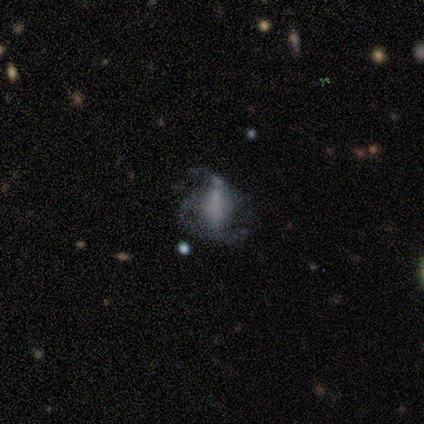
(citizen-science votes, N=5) A featured or disk galaxy (100%) with a strong bar (40%, tied with weak), no spiral arms (60%) and no central bulge (80%). Merging: none (60%).